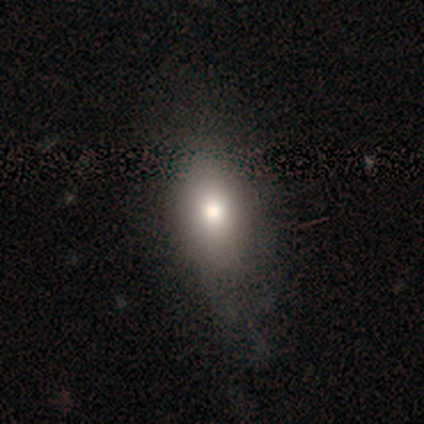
smooth-or-featured: smooth: 92% | featured or disk: 8% | star or artifact: 0%
  how-rounded: in between: 92% | round: 8% | cigar-shaped: 0%
  merging: none: 54% | minor disturbance: 31% | major disturbance: 15% | merger: 0%